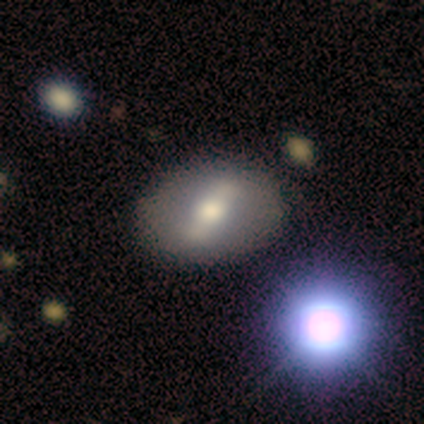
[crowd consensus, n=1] Q: Smooth or featured?
A: featured or disk (100%)
Q: Edge-on disk?
A: no (100%)
Q: Bar?
A: strong (100%)
Q: Spiral arms?
A: no (100%)
Q: Bulge size?
A: moderate (100%)
Q: Merging?
A: none (100%)